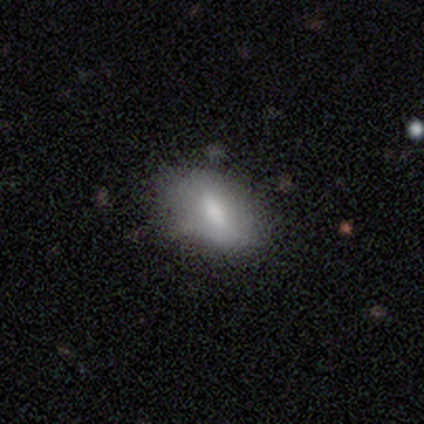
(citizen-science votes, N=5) Smooth or featured?
  - featured or disk: 60% *
  - smooth: 40%
  - star or artifact: 0%
Edge-on disk?
  - no: 100% *
  - yes: 0%
Bar?
  - weak: 67% *
  - strong: 33%
  - no: 0%
Spiral arms?
  - no: 100% *
  - yes: 0%
Bulge size?
  - moderate: 67% *
  - small: 33%
  - dominant: 0%
  - large: 0%
  - none: 0%
Merging?
  - none: 60% *
  - minor disturbance: 40%
  - major disturbance: 0%
  - merger: 0%